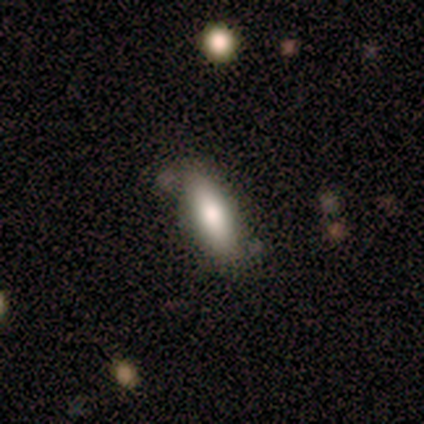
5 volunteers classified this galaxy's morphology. Smooth or featured? 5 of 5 (100%) said smooth. How rounded? 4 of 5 (80%) said in between. Merging? 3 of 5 (60%) said none.